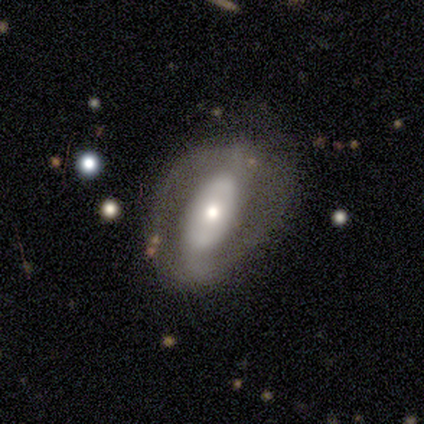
Volunteers were most divided on "spiral winding" (2-way tie): tight: 38%, medium: 38%, loose: 24%. More confident: edge-on disk — no (91%); smooth or featured — featured or disk (77%); spiral arm count — 2 (76%); bulge size — moderate (66%); spiral arms — yes (56%); bar — no (52%); merging — none (51%).